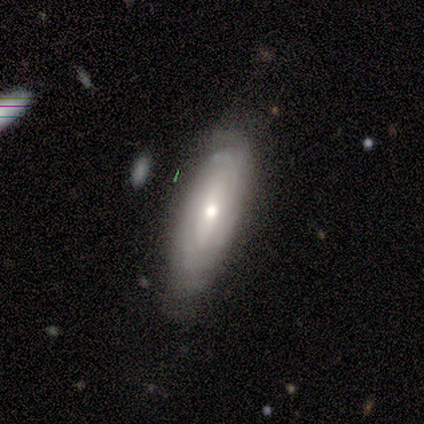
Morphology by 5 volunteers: Overall: featured or disk (60%; smooth 40%). Edge-on disk: no (100%). Bar: weak (67%; no 33%). Spiral arms: yes (100%). Spiral arm count: can't tell (67%; 2 33%). Spiral winding: tight (100%). Bulge size: moderate (67%; small 33%). Merging: none (40%, tied with minor disturbance).